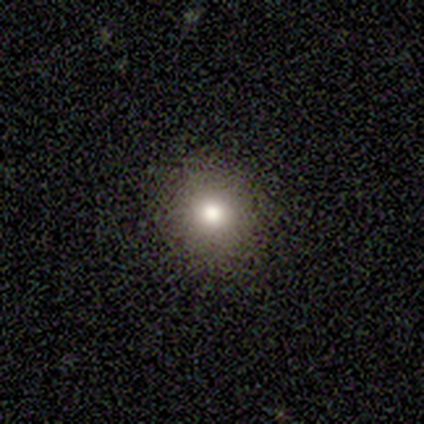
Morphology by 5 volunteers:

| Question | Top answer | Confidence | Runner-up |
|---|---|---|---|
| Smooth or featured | smooth | 40% | tied: featured or disk (40%) |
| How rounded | round | 100% | — |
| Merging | none | 100% | — |